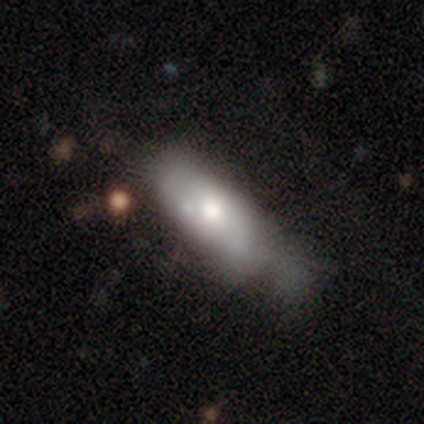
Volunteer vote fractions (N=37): Volunteers were most divided on "merging": minor disturbance: 44%, major disturbance: 38%, merger: 12%, none: 6%. More confident: how rounded — in between (89%); smooth or featured — smooth (51%).